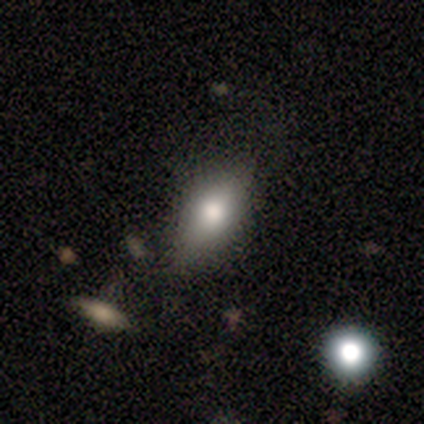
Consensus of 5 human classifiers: Overall: smooth (100%). How rounded: in between (100%). Merging: none (100%).